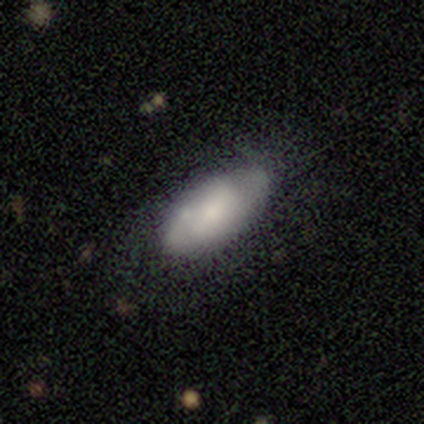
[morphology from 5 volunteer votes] smooth 100%, featured or disk 0%, star or artifact 0%. Down the decision tree: how rounded — in between (80%); merging — none (60%).